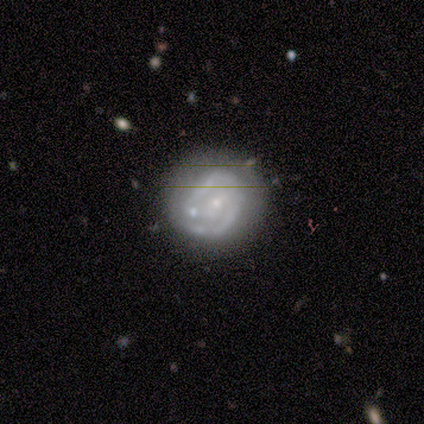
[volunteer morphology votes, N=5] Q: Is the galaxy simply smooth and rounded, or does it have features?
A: featured or disk — 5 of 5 (100%).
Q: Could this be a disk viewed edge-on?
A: no — 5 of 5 (100%).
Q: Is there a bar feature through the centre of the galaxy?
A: weak — 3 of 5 (60%).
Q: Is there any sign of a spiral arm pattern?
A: yes — 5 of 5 (100%).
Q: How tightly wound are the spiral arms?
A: tight — 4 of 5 (80%).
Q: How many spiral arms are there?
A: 2 — 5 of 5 (100%).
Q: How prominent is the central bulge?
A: small — 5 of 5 (100%).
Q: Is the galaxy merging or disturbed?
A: none — 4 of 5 (80%).